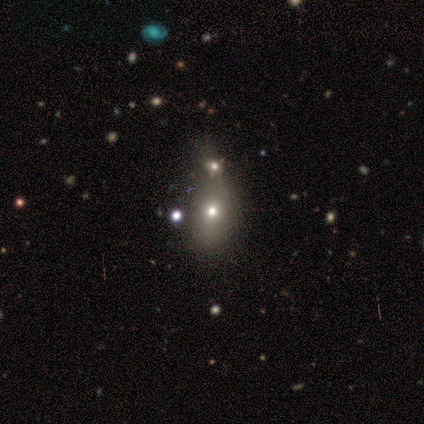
Morphology: type=featured or disk (60%); edge-on=no (100%); bar=no (100%); spiral arms=no (100%); bulge=small (67%); merging=merger (60%).